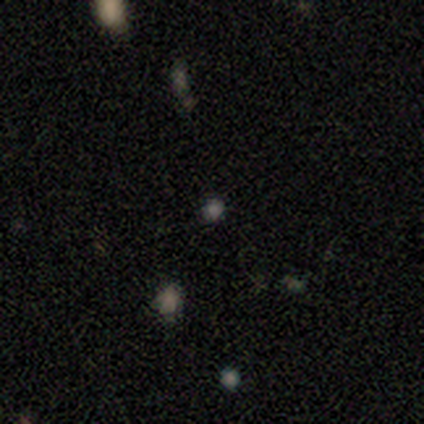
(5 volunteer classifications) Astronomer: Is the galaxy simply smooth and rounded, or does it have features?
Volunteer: star or artifact — 60% (runner-up: smooth, 40%).